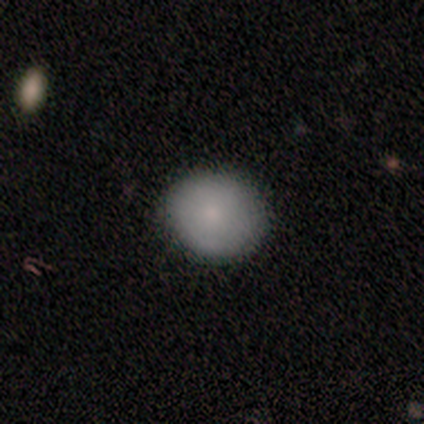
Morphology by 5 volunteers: Volunteers were most divided on "how rounded" (2-way tie): round: 50%, in between: 50%, cigar-shaped: 0%. More confident: merging — none (100%); smooth or featured — smooth (80%).